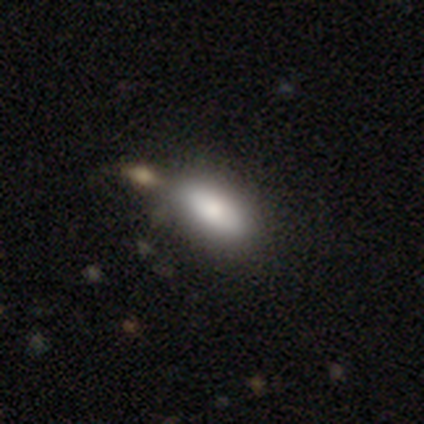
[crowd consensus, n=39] This appears to be a smooth galaxy with no disk features (87%) that is in between round and cigar-shaped (91%). Merging: none (57%).